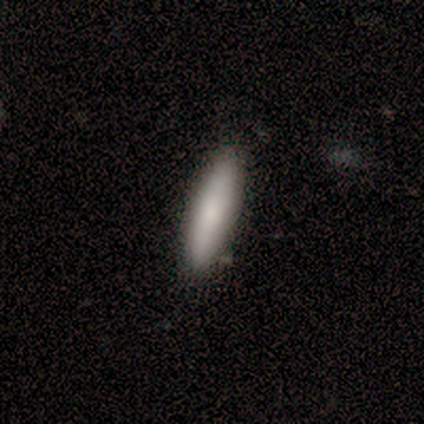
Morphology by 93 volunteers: A smooth galaxy with no disk features (85%) that is cigar-shaped (81%).

Vote fractions:
- Smooth or featured? smooth: 85% / featured or disk: 9% / star or artifact: 6%
- How rounded? cigar-shaped: 81% / in between: 19% / round: 0%
- Merging? none: 84% / minor disturbance: 13% / merger: 2% / major disturbance: 1%